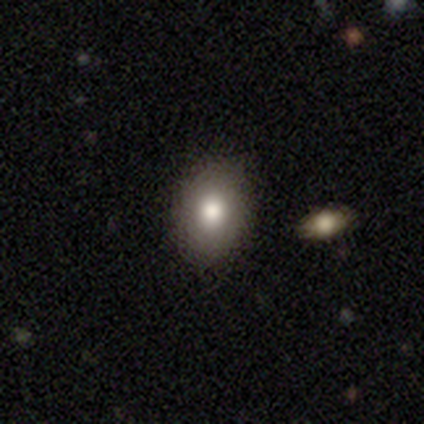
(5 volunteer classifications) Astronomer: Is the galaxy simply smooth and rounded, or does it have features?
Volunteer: smooth — 100%.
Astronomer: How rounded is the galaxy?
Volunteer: in between — 80%.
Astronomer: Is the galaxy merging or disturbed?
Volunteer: none — 100%.